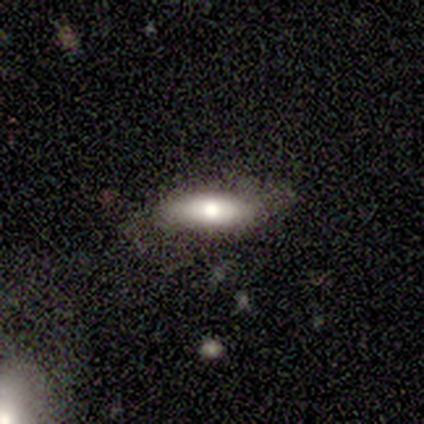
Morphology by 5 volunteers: Smooth or featured? smooth (100%)
How rounded? in between (60%)
Merging? none (60%)